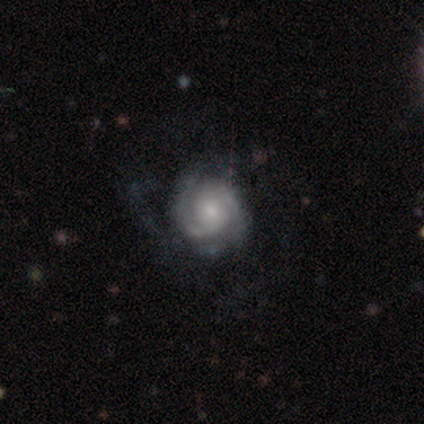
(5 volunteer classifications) smooth_or_featured: featured or disk (p=1.00)
disk_edge_on: no (p=1.00)
bar: no (p=1.00)
has_spiral_arms: yes (p=1.00)
spiral_winding: tight (p=1.00)
spiral_arm_count: 2 (p=0.60) [alt: 1 p=0.20]
bulge_size: none (p=0.40) [alt: large p=0.20]
merging: none (p=1.00)